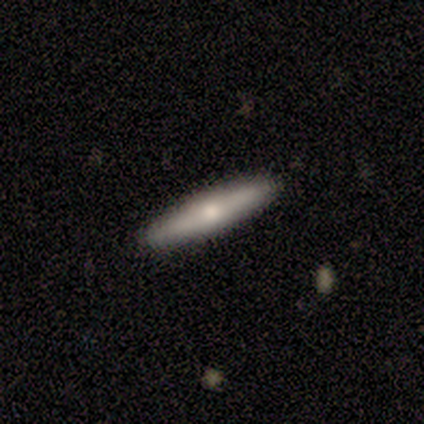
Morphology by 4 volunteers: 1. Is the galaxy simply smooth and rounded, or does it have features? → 75% smooth, 25% featured or disk, 0% star or artifact.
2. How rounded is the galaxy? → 100% cigar-shaped, 0% round, 0% in between.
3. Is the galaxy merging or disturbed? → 100% none, 0% minor disturbance, 0% major disturbance, 0% merger.